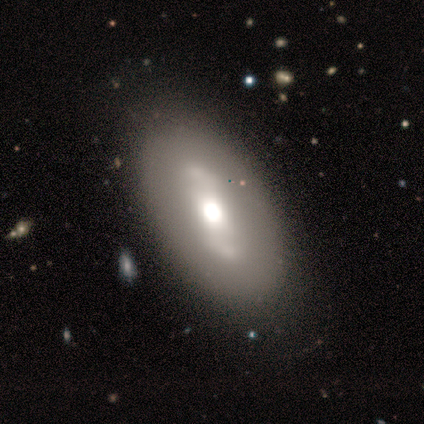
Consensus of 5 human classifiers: Overall: featured or disk (80%). Edge-on disk: no (75%). Bar: weak (67%; no 33%). Spiral arms: yes (67%; no 33%). Spiral arm count: 2 (100%). Spiral winding: medium (50%, tied with loose). Bulge size: moderate (67%; large 33%). Merging: none (100%).